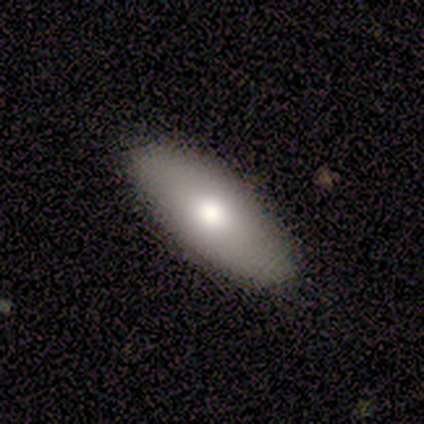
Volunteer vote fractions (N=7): Smooth or featured? smooth (86%)
How rounded? in between (100%)
Merging? none (100%)